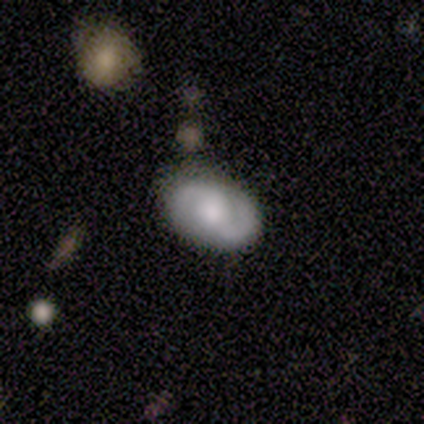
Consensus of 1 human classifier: Q: Smooth or featured?
A: smooth (100%)
Q: How rounded?
A: in between (100%)
Q: Merging?
A: none (100%)